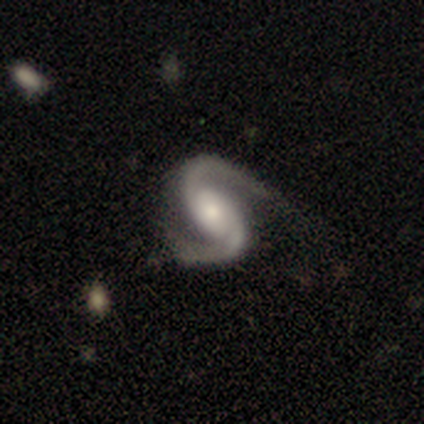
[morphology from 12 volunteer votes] featured or disk 100%, smooth 0%, star or artifact 0%. Down the decision tree: edge-on disk — no (100%); bar — no (67%); spiral arms — yes (92%); spiral arm count — 2 (100%); spiral winding — medium (64%); bulge size — moderate (58%); merging — none (75%).